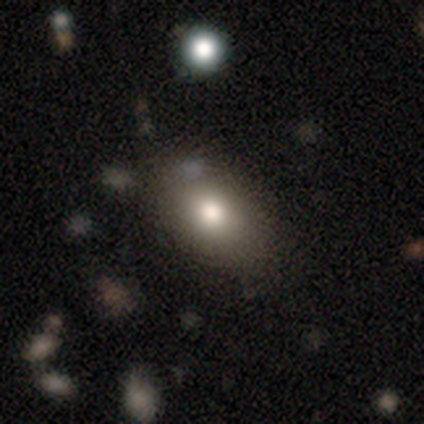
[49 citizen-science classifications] A smooth galaxy with no disk features (73%) that is in between round and cigar-shaped (75%).

Vote fractions:
- Smooth or featured? smooth: 73% / star or artifact: 16% / featured or disk: 10%
- How rounded? in between: 75% / round: 22% / cigar-shaped: 3%
- Merging? none: 80% / minor disturbance: 10% / major disturbance: 10% / merger: 0%